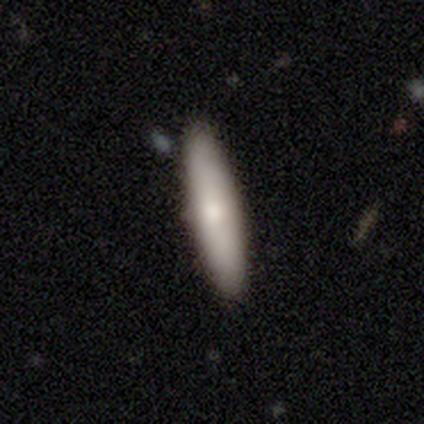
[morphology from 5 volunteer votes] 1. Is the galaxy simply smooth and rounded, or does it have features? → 80% smooth, 20% featured or disk, 0% star or artifact.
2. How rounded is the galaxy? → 75% cigar-shaped, 25% in between, 0% round.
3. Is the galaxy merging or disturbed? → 80% none, 20% minor disturbance, 0% major disturbance, 0% merger.